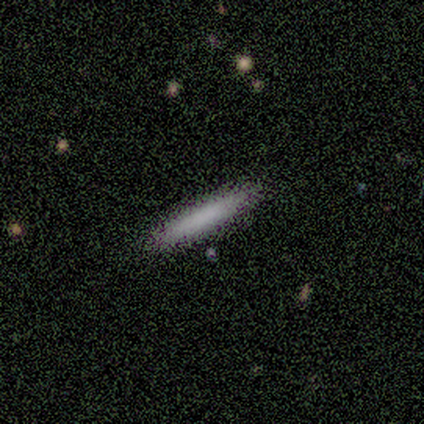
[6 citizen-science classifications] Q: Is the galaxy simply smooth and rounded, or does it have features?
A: smooth — 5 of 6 (83%).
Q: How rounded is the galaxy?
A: cigar-shaped — 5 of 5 (100%).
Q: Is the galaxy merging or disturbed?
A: none — 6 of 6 (100%).